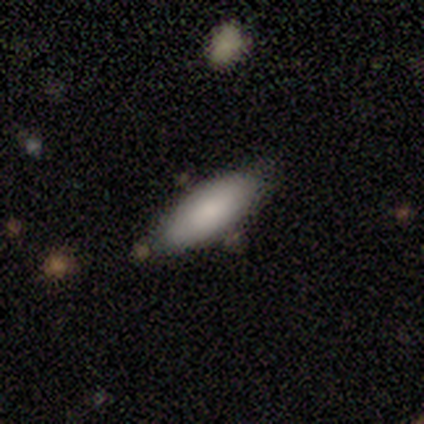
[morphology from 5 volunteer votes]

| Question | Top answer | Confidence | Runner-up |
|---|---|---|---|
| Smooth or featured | smooth | 100% | — |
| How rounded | in between | 100% | — |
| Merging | none | 40% | tied: minor disturbance (40%) |